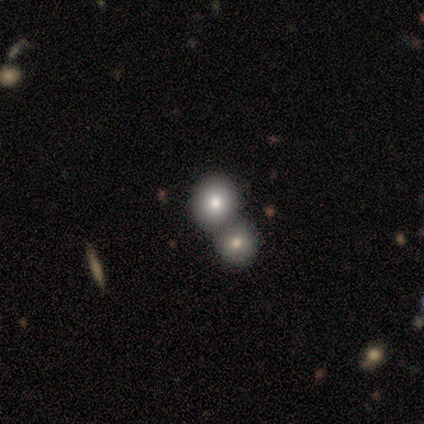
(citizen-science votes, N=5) Overall: smooth (80%). How rounded: round (100%). Merging: merger (75%).